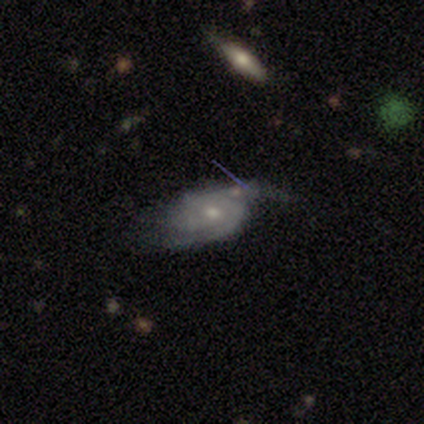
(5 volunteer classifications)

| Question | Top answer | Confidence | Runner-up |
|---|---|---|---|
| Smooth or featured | featured or disk | 100% | — |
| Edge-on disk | no | 100% | — |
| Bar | no | 100% | — |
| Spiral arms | yes | 100% | — |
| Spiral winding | tight | 40% | tied: medium (40%) |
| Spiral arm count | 2 | 80% | 3 (20%) |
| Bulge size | small | 60% | moderate (40%) |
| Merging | none | 60% | minor disturbance (20%) |